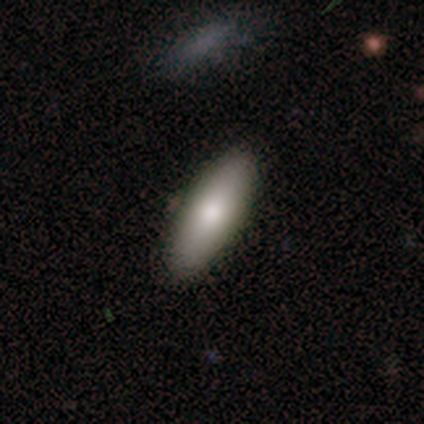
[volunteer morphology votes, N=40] Q: Smooth or featured?
A: smooth (88%); runner-up: featured or disk (10%)
Q: How rounded?
A: in between (66%); runner-up: cigar-shaped (31%)
Q: Merging?
A: none (79%); runner-up: minor disturbance (15%)